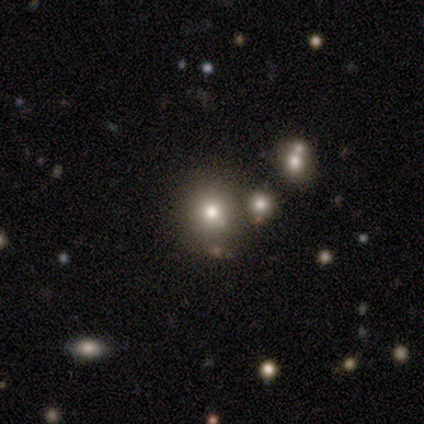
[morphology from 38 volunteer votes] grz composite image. It shows a smooth galaxy with no disk features (63%) that is round (79%). Merging: none (77%).